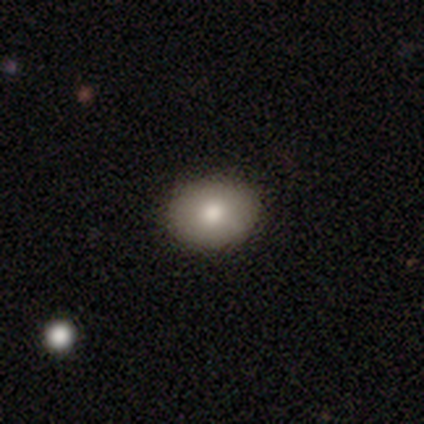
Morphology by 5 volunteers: A smooth galaxy with no disk features (100%) that is in between round and cigar-shaped (80%). Merging: none (60%).